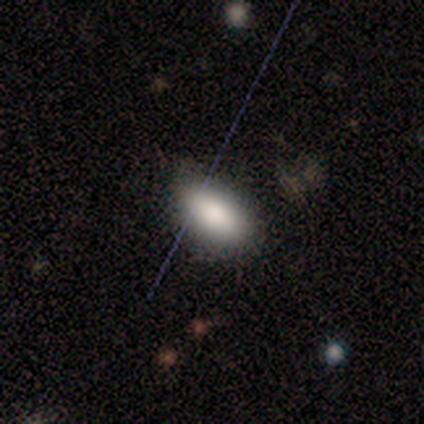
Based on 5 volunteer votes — Smooth or featured? 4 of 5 (80%) said smooth. How rounded? 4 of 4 (100%) said in between. Merging? 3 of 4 (75%) said none.